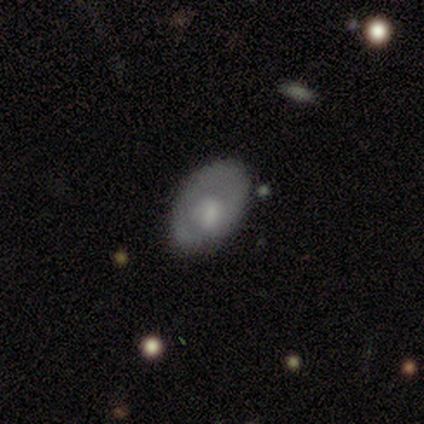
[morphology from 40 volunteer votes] Q: Smooth or featured?
A: smooth (55%); runner-up: featured or disk (35%)
Q: How rounded?
A: in between (86%); runner-up: round (14%)
Q: Merging?
A: none (50%); runner-up: minor disturbance (36%)